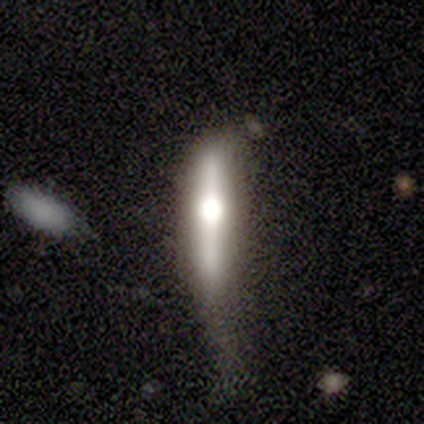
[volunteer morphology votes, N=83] Smooth or featured? featured or disk (75%)
Edge-on disk? yes (85%)
Edge-on bulge? rounded (94%)
Merging? major disturbance (39%)